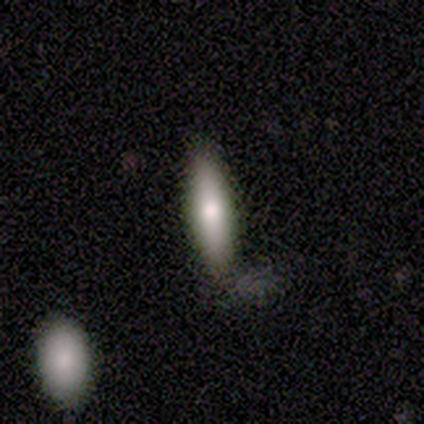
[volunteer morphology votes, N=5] smooth 100%, featured or disk 0%, star or artifact 0%. Down the decision tree: how rounded — in between (60%); merging — none (80%).